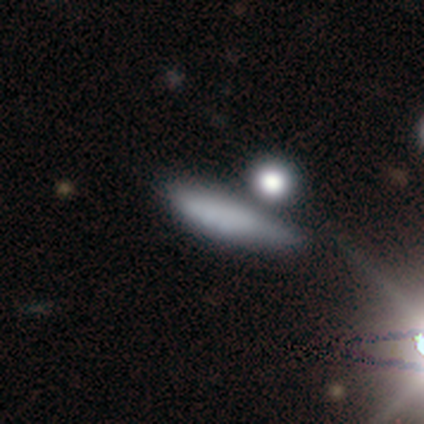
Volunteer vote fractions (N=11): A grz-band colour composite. It shows a smooth galaxy with no disk features (73%) that is in between round and cigar-shaped (50%, tied with cigar-shaped). Merging: none (50%).